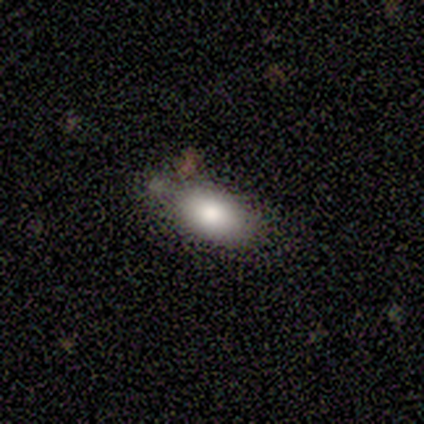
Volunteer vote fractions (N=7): Smooth or featured: smooth — 100%
How rounded: in between — 71% (round — 14%)
Merging: none — 71% (minor disturbance — 29%)